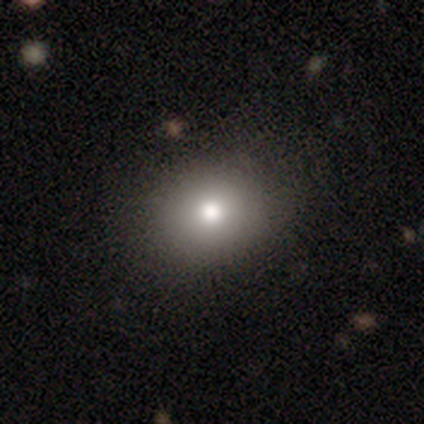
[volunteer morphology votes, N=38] A smooth galaxy with no disk features (68%) that is round (69%).

Vote fractions:
- Smooth or featured? smooth: 68% / star or artifact: 18% / featured or disk: 13%
- How rounded? round: 69% / in between: 31% / cigar-shaped: 0%
- Merging? none: 90% / minor disturbance: 6% / major disturbance: 3% / merger: 0%